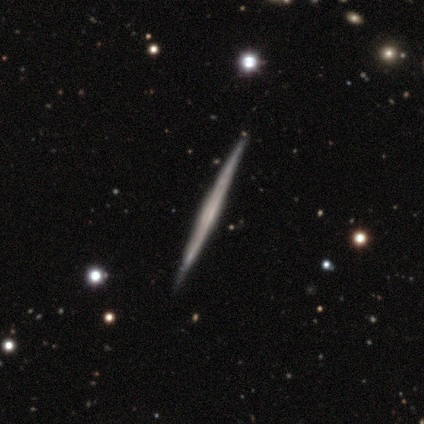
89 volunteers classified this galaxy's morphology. Smooth or featured?
  - featured or disk: 78% *
  - smooth: 19%
  - star or artifact: 3%
Edge-on disk?
  - yes: 99% *
  - no: 1%
Edge-on bulge?
  - none: 82% *
  - boxy: 9%
  - rounded: 9%
Merging?
  - none: 91% *
  - minor disturbance: 9%
  - major disturbance: 0%
  - merger: 0%